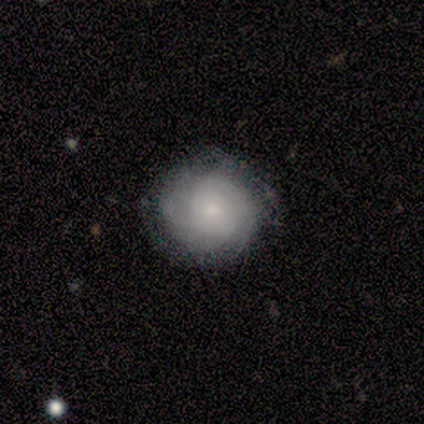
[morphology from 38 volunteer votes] This appears to be a featured or disk galaxy (66%) with no bar (92%), tight (83%) spiral arms (92%) and a small central bulge (60%). Merging: none (79%).